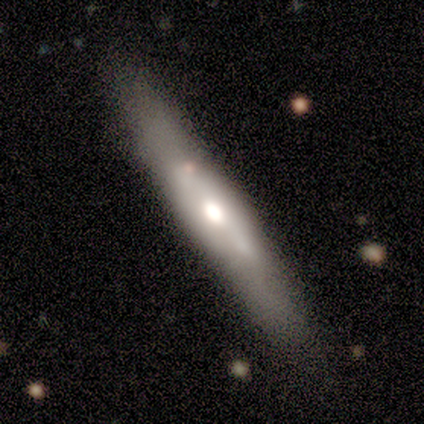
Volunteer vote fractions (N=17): A featured or disk galaxy (53%) viewed edge-on (78%) with a rounded central bulge (71%). Merging: none (53%).